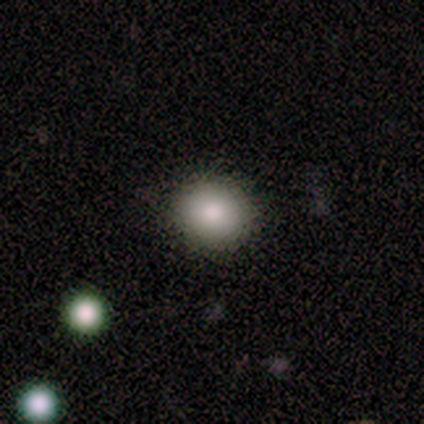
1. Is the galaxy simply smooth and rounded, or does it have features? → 60% smooth, 40% star or artifact, 0% featured or disk.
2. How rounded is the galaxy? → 67% round, 33% in between, 0% cigar-shaped.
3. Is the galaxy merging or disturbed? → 100% none, 0% minor disturbance, 0% major disturbance, 0% merger.